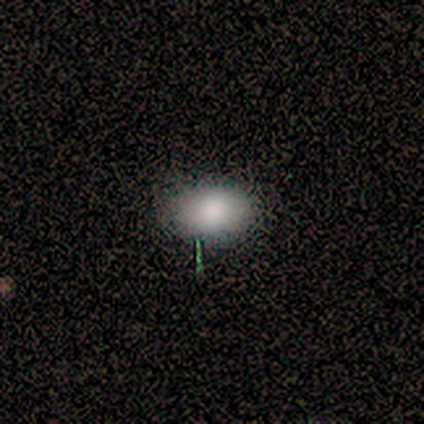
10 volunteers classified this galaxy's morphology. Smooth or featured?
  - smooth: 90% *
  - featured or disk: 10%
  - star or artifact: 0%
How rounded?
  - in between: 78% *
  - round: 22%
  - cigar-shaped: 0%
Merging?
  - none: 80% *
  - minor disturbance: 20%
  - major disturbance: 0%
  - merger: 0%